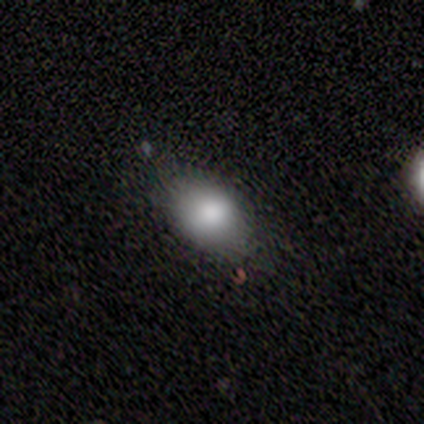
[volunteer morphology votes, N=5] A featured or disk galaxy (60%) with no bar (100%), no spiral arms (100%) and a dominant central bulge (50%, tied with large).

Vote fractions:
- Smooth or featured? featured or disk: 60% / smooth: 40% / star or artifact: 0%
- Edge-on disk? no: 67% / yes: 33%
- Bar? no: 100% / strong: 0% / weak: 0%
- Spiral arms? no: 100% / yes: 0%
- Bulge size? dominant: 50% (tied) / large: 50% (tied) / moderate: 0% / small: 0% / none: 0%
- Merging? none: 100% / minor disturbance: 0% / major disturbance: 0% / merger: 0%